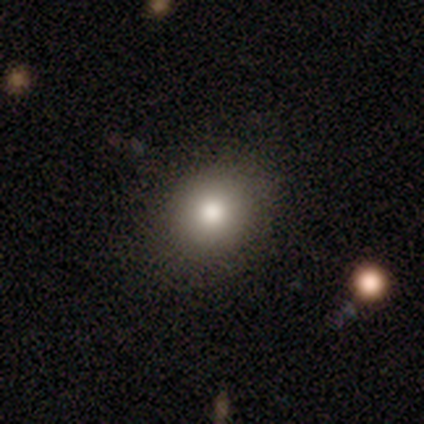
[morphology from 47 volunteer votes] smooth-or-featured: smooth: 72% | star or artifact: 21% | featured or disk: 6%
  how-rounded: round: 71% | in between: 29% | cigar-shaped: 0%
  merging: none: 81% | minor disturbance: 16% | major disturbance: 3% | merger: 0%